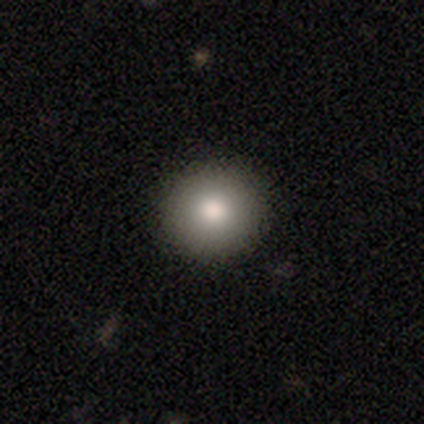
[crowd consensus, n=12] Smooth or featured?
  - smooth: 83% *
  - star or artifact: 17%
  - featured or disk: 0%
How rounded?
  - round: 100% *
  - in between: 0%
  - cigar-shaped: 0%
Merging?
  - none: 90% *
  - minor disturbance: 10%
  - major disturbance: 0%
  - merger: 0%